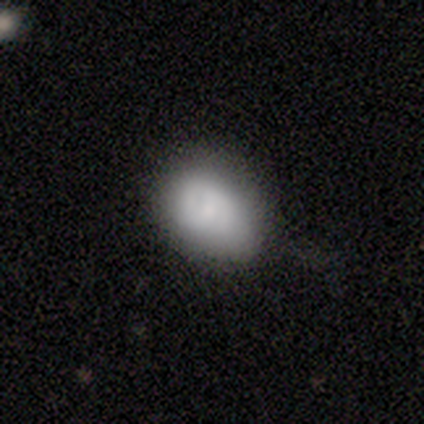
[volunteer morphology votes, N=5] A smooth galaxy with no disk features (60%) that is in between round and cigar-shaped (67%).

Vote fractions:
- Smooth or featured? smooth: 60% / featured or disk: 40% / star or artifact: 0%
- How rounded? in between: 67% / round: 33% / cigar-shaped: 0%
- Merging? none: 80% / minor disturbance: 20% / major disturbance: 0% / merger: 0%